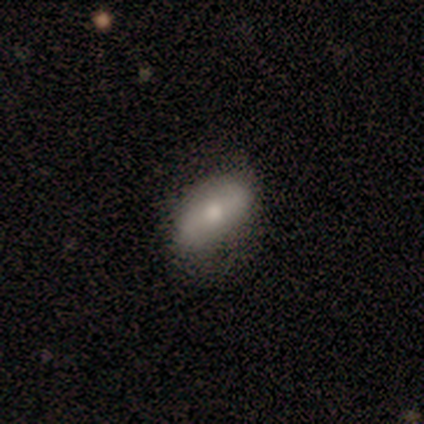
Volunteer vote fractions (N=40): Morphology: type=smooth (65%); roundness=in between (100%); merging=none (55%).